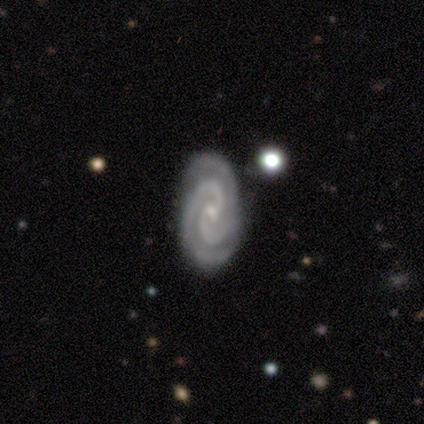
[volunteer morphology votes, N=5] This is clearly a featured or disk galaxy (100%). It is clearly not viewed edge-on (100%). Bar: likely no (60%). Spiral arm pattern: clearly yes (100%). Spiral arm count: clearly 2 (80%). Spiral winding: clearly tight (80%). Central bulge: clearly small (100%). Merging: clearly none (100%).